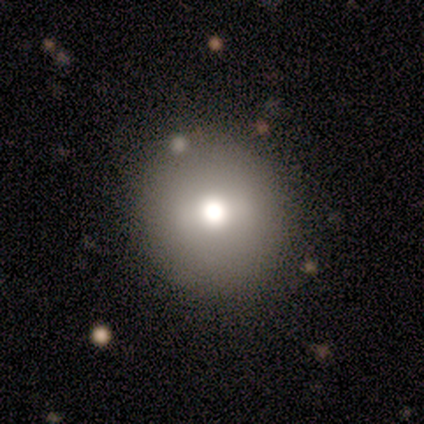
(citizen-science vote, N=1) Smooth or featured? 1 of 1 (100%) said star or artifact.